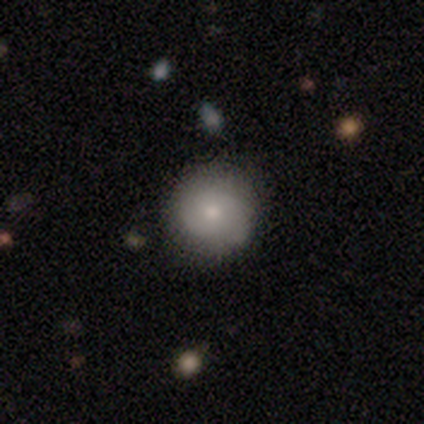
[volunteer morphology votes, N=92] type=smooth (65%); roundness=round (88%); merging=none (84%).